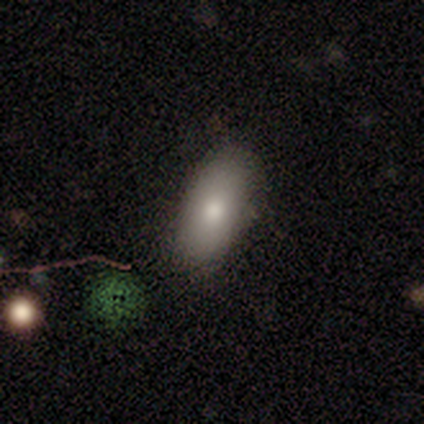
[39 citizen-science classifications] Smooth or featured: smooth — 79% (featured or disk — 15%)
How rounded: in between — 90% (round — 6%)
Merging: none — 86% (minor disturbance — 11%)